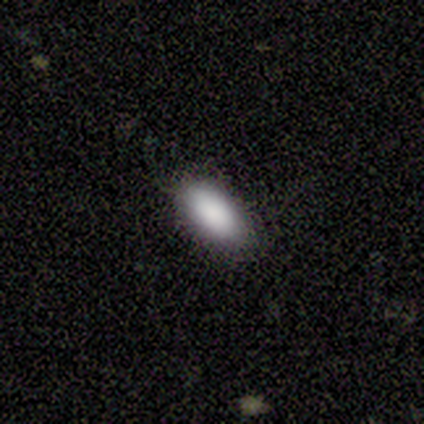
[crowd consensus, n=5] Q: Smooth or featured?
A: smooth (80%); runner-up: featured or disk (20%)
Q: How rounded?
A: in between (75%); runner-up: cigar-shaped (25%)
Q: Merging?
A: none (80%); runner-up: minor disturbance (20%)